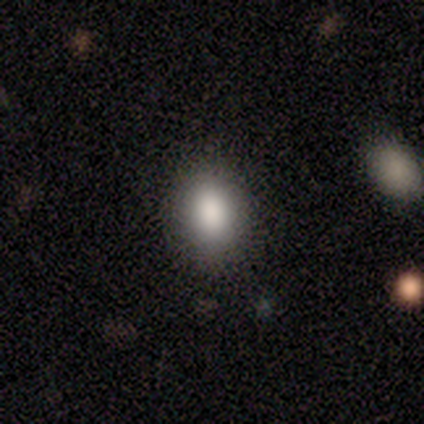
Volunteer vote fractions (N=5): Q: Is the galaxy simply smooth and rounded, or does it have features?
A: smooth — 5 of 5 (100%).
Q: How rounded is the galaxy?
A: in between — 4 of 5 (80%).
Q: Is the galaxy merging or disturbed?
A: none — 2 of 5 (40%, tied with major disturbance).